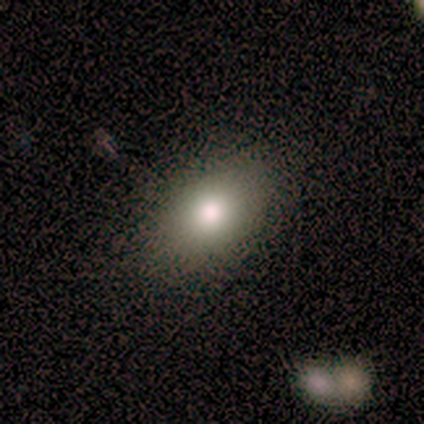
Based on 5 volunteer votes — Volunteers were most divided on "smooth or featured": smooth: 80%, featured or disk: 20%, star or artifact: 0%. More confident: how rounded — in between (100%); merging — none (80%).